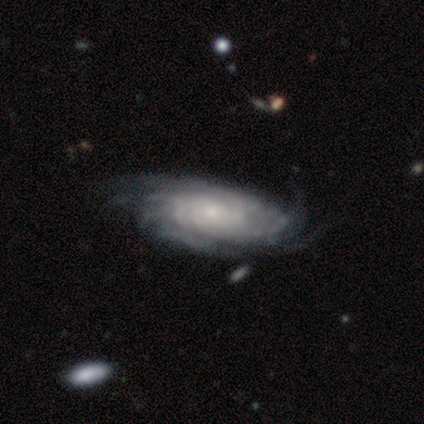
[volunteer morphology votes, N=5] Q: Smooth or featured?
A: featured or disk (100%)
Q: Edge-on disk?
A: no (100%)
Q: Bar?
A: no (100%)
Q: Spiral arms?
A: yes (100%)
Q: Spiral winding?
A: tight (80%); runner-up: loose (20%)
Q: Spiral arm count?
A: more than 4 (40%); tied with: can't tell (40%)
Q: Bulge size?
A: small (80%); runner-up: moderate (20%)
Q: Merging?
A: none (60%); runner-up: major disturbance (40%)